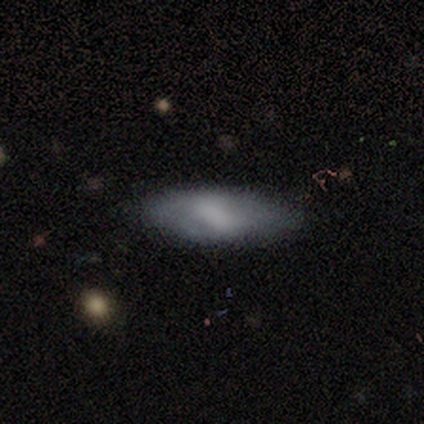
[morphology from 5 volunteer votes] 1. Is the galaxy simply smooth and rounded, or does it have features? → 80% smooth, 20% featured or disk, 0% star or artifact.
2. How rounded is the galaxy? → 50% in between (tied), 50% cigar-shaped (tied), 0% round.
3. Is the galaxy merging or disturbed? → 80% none, 20% minor disturbance, 0% major disturbance, 0% merger.